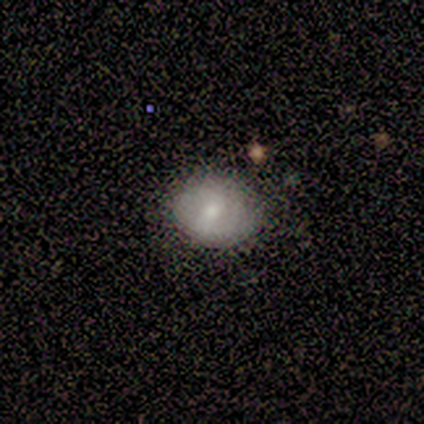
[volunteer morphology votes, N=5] Overall: smooth (100%). How rounded: in between (100%). Merging: none (80%).